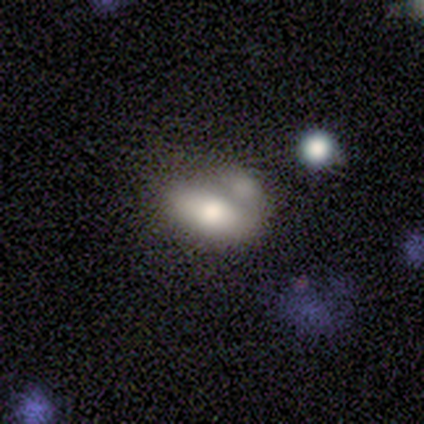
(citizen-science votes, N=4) Smooth or featured? 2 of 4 (50%) said featured or disk. Edge-on disk? 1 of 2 (50%, tied with no) said yes. Edge-on bulge? 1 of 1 (100%) said rounded. Merging? 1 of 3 (33%, tied with minor disturbance and merger) said none.